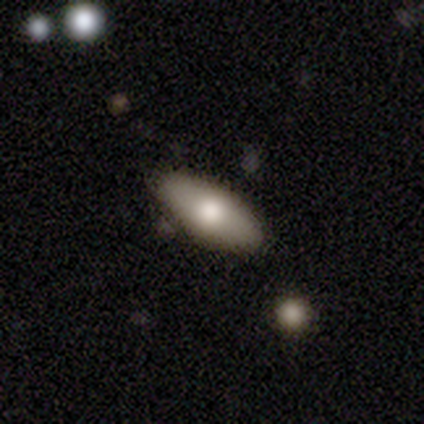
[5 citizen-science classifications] Smooth or featured? smooth (80%)
How rounded? in between (75%)
Merging? none (100%)